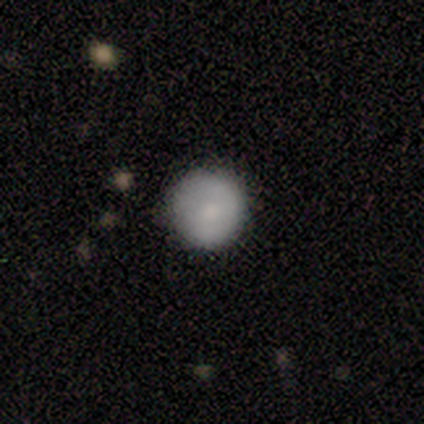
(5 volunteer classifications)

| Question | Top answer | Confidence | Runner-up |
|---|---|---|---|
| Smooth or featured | smooth | 80% | featured or disk (20%) |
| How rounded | round | 100% | — |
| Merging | none | 60% | minor disturbance (40%) |